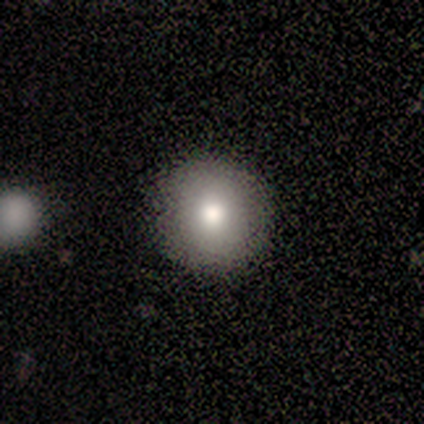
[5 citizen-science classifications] Volunteers were most divided on "smooth or featured": smooth: 80%, star or artifact: 20%, featured or disk: 0%. More confident: how rounded — round (100%); merging — none (100%).